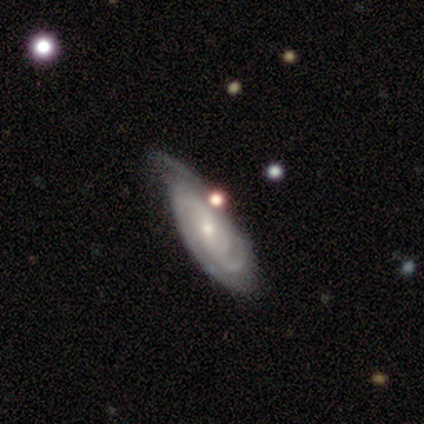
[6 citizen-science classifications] Smooth or featured? 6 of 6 (100%) said featured or disk. Edge-on disk? 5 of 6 (83%) said no. Bar? 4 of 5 (80%) said no. Spiral arms? 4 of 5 (80%) said yes. Spiral winding? 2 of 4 (50%, tied with loose) said tight. Spiral arm count? 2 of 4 (50%) said can't tell. Bulge size? 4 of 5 (80%) said small. Merging? 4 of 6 (67%) said none.